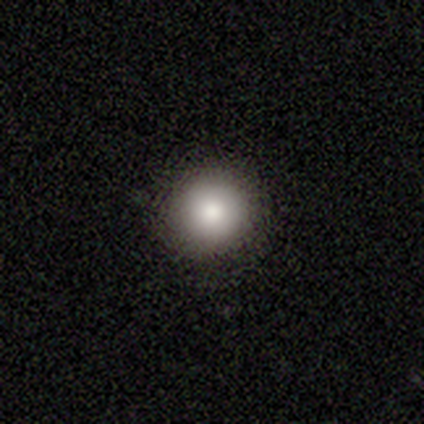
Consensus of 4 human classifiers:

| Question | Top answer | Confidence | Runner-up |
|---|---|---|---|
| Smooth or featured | smooth | 75% | featured or disk (25%) |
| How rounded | round | 100% | — |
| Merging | none | 100% | — |